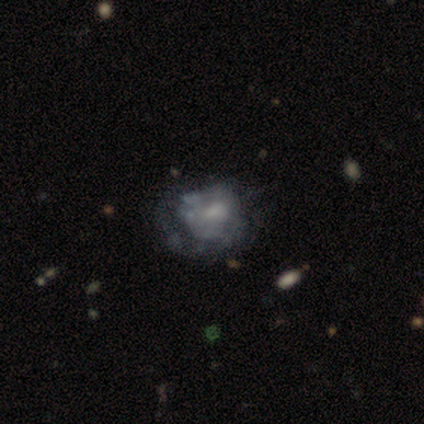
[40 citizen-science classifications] A featured or disk galaxy (80%) with no bar (72%), no spiral arms (75%) and a moderate central bulge (38%). Merging: none (19%, tied with minor disturbance and major disturbance).